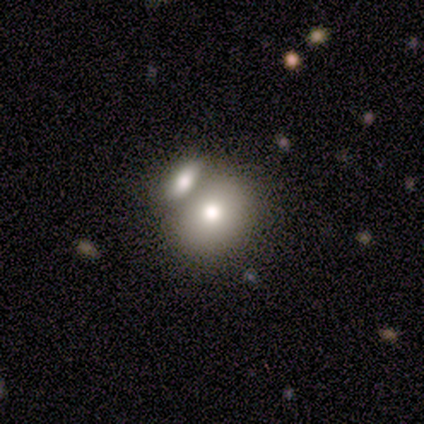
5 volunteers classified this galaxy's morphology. smooth_or_featured: smooth (p=0.80) [alt: featured or disk p=0.20]
how_rounded: round (p=0.75) [alt: in between p=0.25]
merging: none (p=0.60) [alt: merger p=0.40]